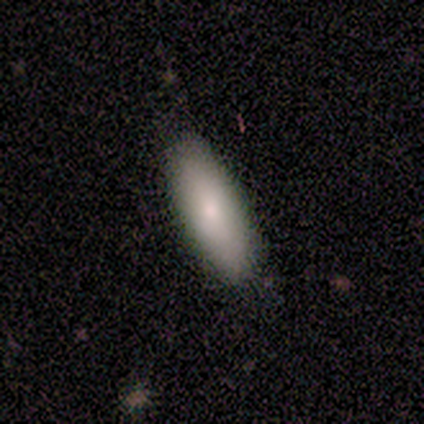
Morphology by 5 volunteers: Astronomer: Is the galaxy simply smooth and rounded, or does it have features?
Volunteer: smooth — 100%.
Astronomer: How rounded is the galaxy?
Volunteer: cigar-shaped — 60% (runner-up: in between, 40%).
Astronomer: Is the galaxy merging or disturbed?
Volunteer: none — 60%.